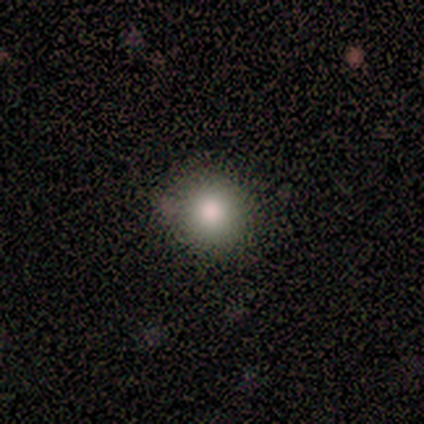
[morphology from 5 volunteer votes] Volunteers were most divided on "smooth or featured" (2-way tie): smooth: 40%, featured or disk: 40%, star or artifact: 20%. More confident: how rounded — round (100%); merging — none (100%).